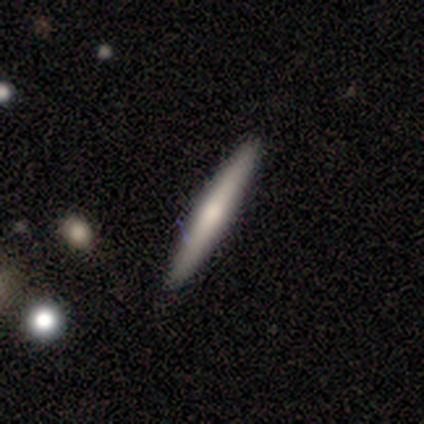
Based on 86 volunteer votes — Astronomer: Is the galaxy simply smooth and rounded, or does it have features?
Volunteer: smooth — 53% (runner-up: featured or disk, 37%).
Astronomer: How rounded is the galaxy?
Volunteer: cigar-shaped — 100%.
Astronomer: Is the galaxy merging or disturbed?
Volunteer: none — 87%.